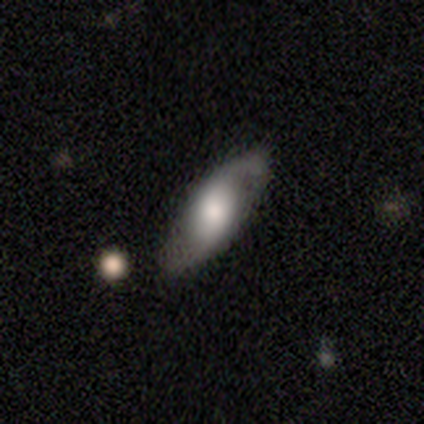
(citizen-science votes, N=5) Volunteers were most divided on "spiral winding" (2-way tie): medium: 50%, loose: 50%, tight: 0%. More confident: edge-on disk — no (100%); bar — no (100%); spiral arms — yes (100%); spiral arm count — 2 (100%); merging — none (100%); smooth or featured — featured or disk (80%); bulge size — moderate (50%).